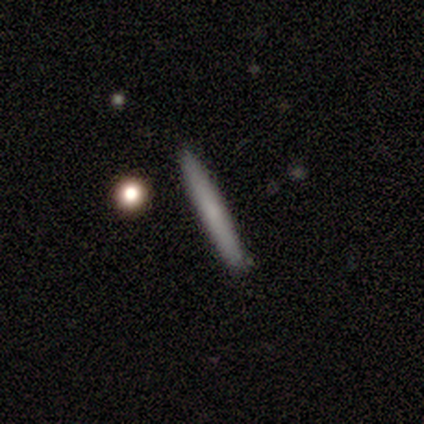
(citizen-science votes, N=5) smooth 60%, featured or disk 40%, star or artifact 0%. Down the decision tree: how rounded — cigar-shaped (100%); merging — none (80%).